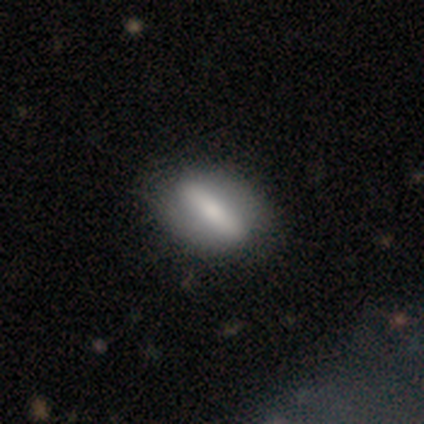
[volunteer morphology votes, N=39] smooth 54%, featured or disk 46%, star or artifact 0%. Down the decision tree: how rounded — in between (62%); merging — none (67%).